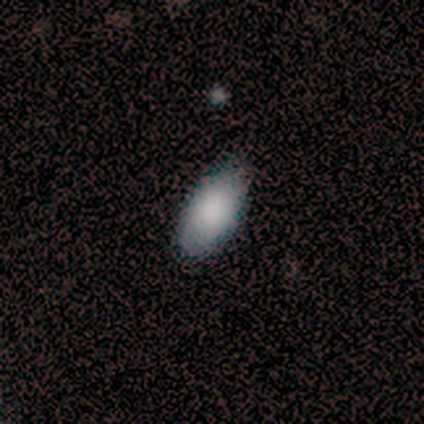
This appears to be a smooth galaxy with no disk features (100%) that is in between round and cigar-shaped (100%). Merging: none (75%).